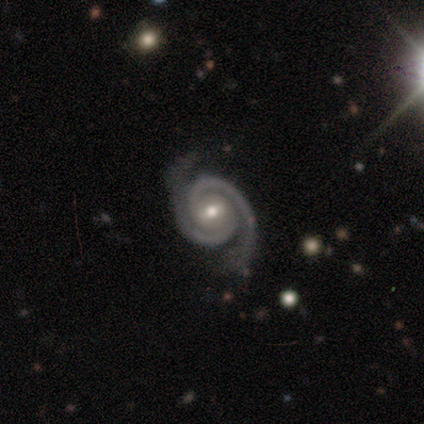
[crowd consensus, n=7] smooth-or-featured: featured or disk: 100% | smooth: 0% | star or artifact: 0%
  disk-edge-on: no: 86% | yes: 14%
    bar: no: 50% | weak: 33% | strong: 17%
    has-spiral-arms: yes: 100% | no: 0%
      spiral-winding: tight: 50% | medium: 33% | loose: 17%
      spiral-arm-count: 2: 83% | more than 4: 17% | 1: 0% | 3: 0% | 4: 0% | can't tell: 0%
    bulge-size: moderate: 67% | small: 33% | dominant: 0% | large: 0% | none: 0%
  merging: none: 86% | minor disturbance: 14% | major disturbance: 0% | merger: 0%